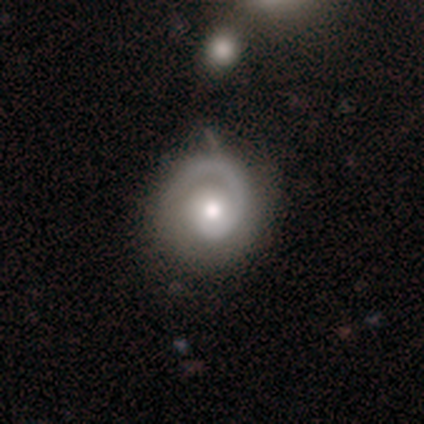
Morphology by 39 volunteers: Smooth or featured?
  - featured or disk: 85% *
  - smooth: 15%
  - star or artifact: 0%
Edge-on disk?
  - no: 91% *
  - yes: 9%
Bar?
  - no: 83% *
  - weak: 13%
  - strong: 3%
Spiral arms?
  - yes: 100% *
  - no: 0%
Spiral winding?
  - tight: 57% *
  - medium: 37%
  - loose: 7%
Spiral arm count?
  - 1: 83% *
  - can't tell: 10%
  - 2: 7%
  - 3: 0%
  - 4: 0%
  - more than 4: 0%
Bulge size?
  - moderate: 70% *
  - small: 17%
  - dominant: 7%
  - large: 7%
  - none: 0%
Merging?
  - none: 69% *
  - minor disturbance: 28%
  - merger: 3%
  - major disturbance: 0%